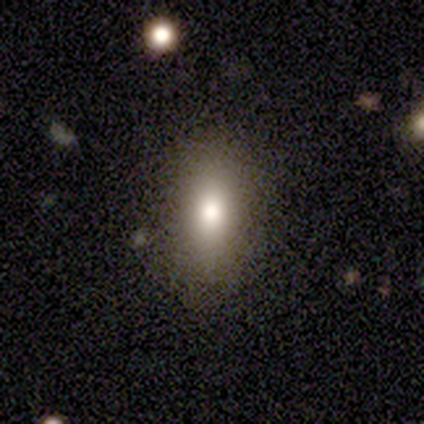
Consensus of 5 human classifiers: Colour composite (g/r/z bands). It shows a smooth galaxy with no disk features (100%) that is in between round and cigar-shaped (60%). Merging: none (60%).